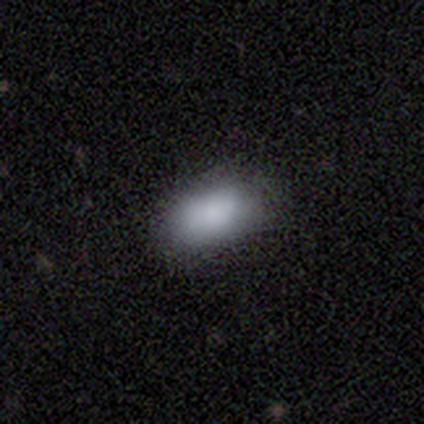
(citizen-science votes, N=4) This appears to be a smooth galaxy with no disk features (75%) that is in between round and cigar-shaped (100%). Merging: none (67%).